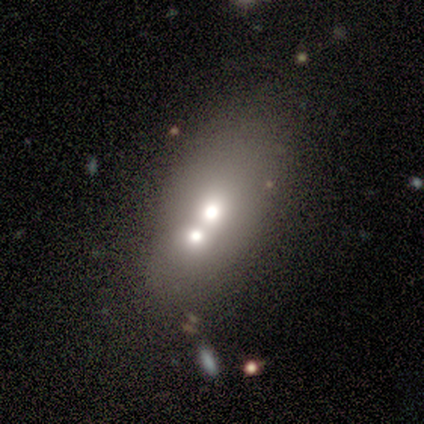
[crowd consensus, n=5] smooth_or_featured: smooth (p=0.80) [alt: featured or disk p=0.20]
how_rounded: in between (p=0.75) [alt: cigar-shaped p=0.25]
merging: merger (p=1.00)